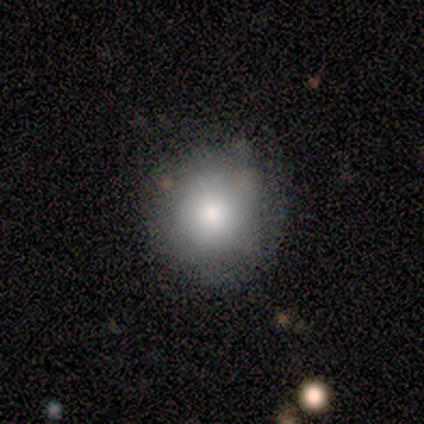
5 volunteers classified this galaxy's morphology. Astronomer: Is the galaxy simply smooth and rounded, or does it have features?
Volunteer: smooth — 80%.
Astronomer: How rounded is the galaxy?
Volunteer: round — 75%.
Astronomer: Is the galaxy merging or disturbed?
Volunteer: none — 80%.